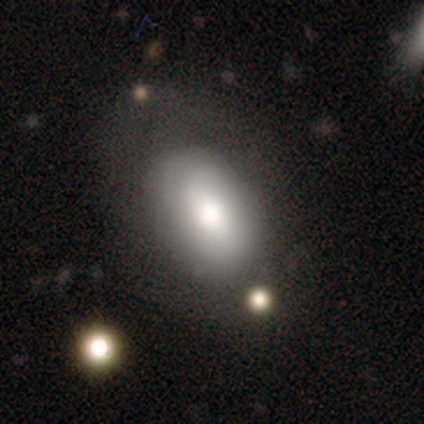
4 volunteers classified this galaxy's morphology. type=smooth (75%); roundness=in between (100%); merging=none (75%).